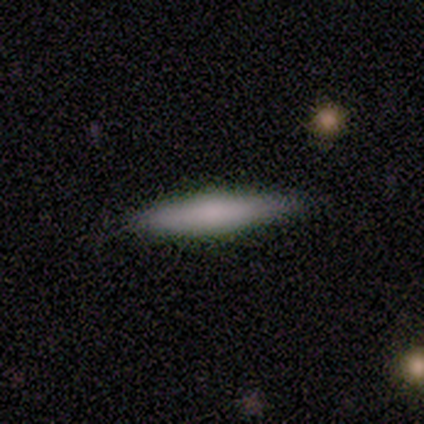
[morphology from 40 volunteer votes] A smooth galaxy with no disk features (72%) that is cigar-shaped (79%). Merging: none (81%).